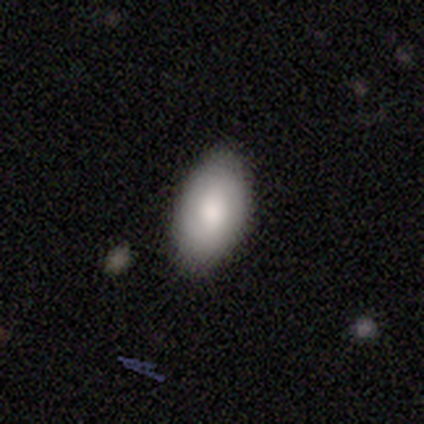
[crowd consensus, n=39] A smooth galaxy with no disk features (79%) that is in between round and cigar-shaped (90%).

Vote fractions:
- Smooth or featured? smooth: 79% / featured or disk: 13% / star or artifact: 8%
- How rounded? in between: 90% / round: 10% / cigar-shaped: 0%
- Merging? none: 92% / minor disturbance: 6% / major disturbance: 3% / merger: 0%